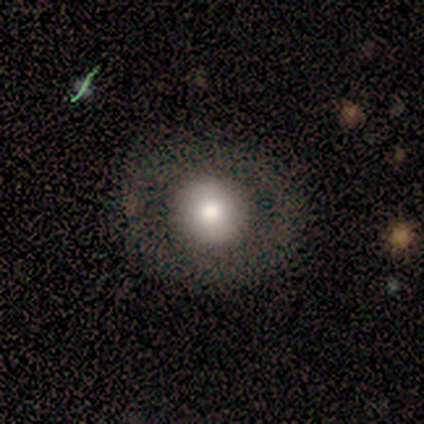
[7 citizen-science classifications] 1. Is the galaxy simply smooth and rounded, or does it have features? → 71% smooth, 29% featured or disk, 0% star or artifact.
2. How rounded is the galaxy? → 100% round, 0% in between, 0% cigar-shaped.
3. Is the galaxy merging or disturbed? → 100% none, 0% minor disturbance, 0% major disturbance, 0% merger.